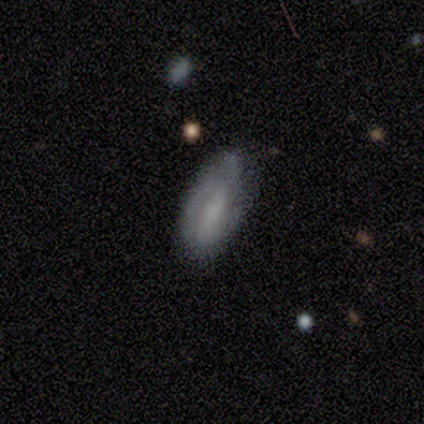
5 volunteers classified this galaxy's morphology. Volunteers were most divided on "spiral winding" (3-way tie): tight: 33%, medium: 33%, loose: 33%. More confident: edge-on disk — no (100%); spiral arms — yes (100%); spiral arm count — 2 (100%); merging — none (80%); bar — strong (67%); bulge size — none (67%); smooth or featured — featured or disk (60%).